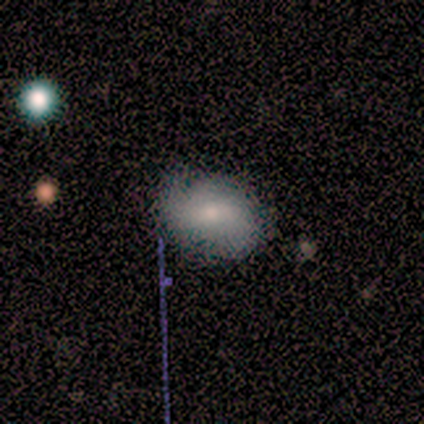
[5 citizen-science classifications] This appears to be a featured or disk galaxy (60%) with no bar (67%), 2 (50%, tied with 3) medium (100%) spiral arms (67%) and a large central bulge (33%, tied with small and none). Merging: none (100%).